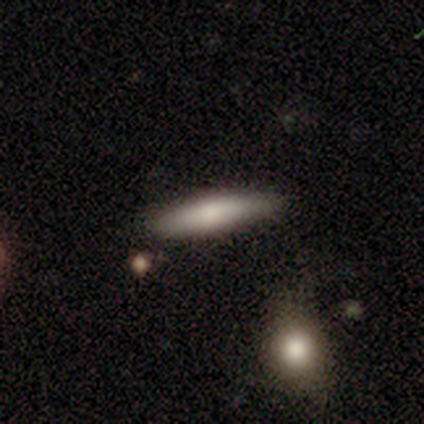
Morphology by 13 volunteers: Volunteers were most divided on "smooth or featured": smooth: 69%, featured or disk: 31%, star or artifact: 0%. More confident: how rounded — cigar-shaped (89%); merging — none (85%).